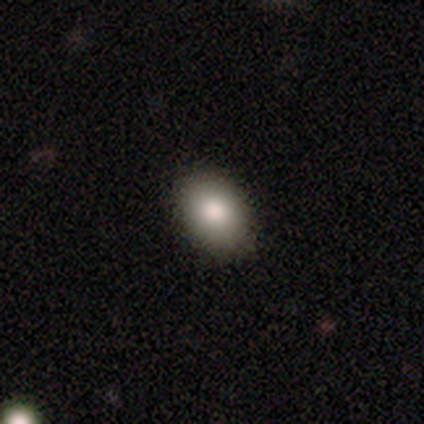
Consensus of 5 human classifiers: Volunteers were most divided on "how rounded": in between: 80%, round: 20%, cigar-shaped: 0%. More confident: smooth or featured — smooth (100%); merging — none (100%).